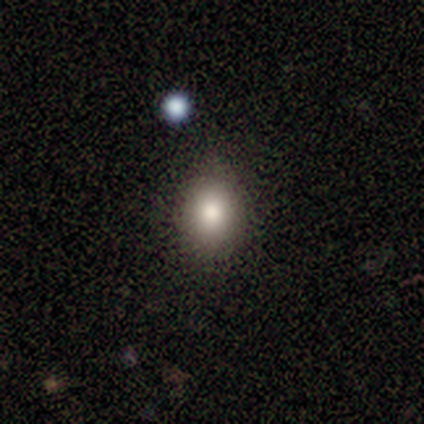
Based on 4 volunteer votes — smooth_or_featured: smooth (p=1.00)
how_rounded: round (p=0.50) [tied with: in between p=0.50]
merging: none (p=1.00)